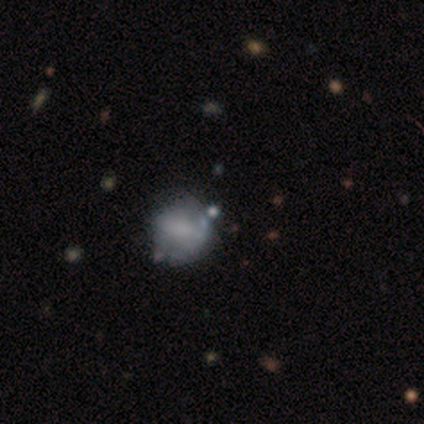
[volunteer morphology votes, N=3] Volunteers were most divided on "smooth or featured": smooth: 67%, star or artifact: 33%, featured or disk: 0%. More confident: how rounded — round (100%); merging — none (100%).